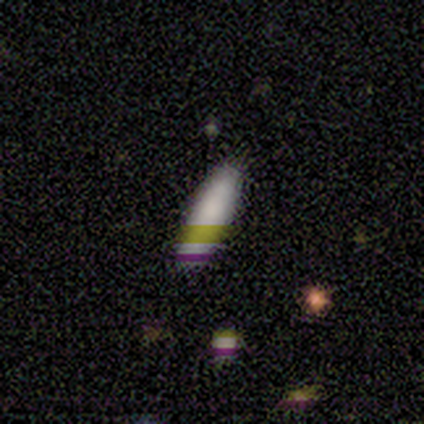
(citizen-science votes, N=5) This is clearly a smooth galaxy (80%). How rounded: likely in between (75%). Merging: clearly none (100%).